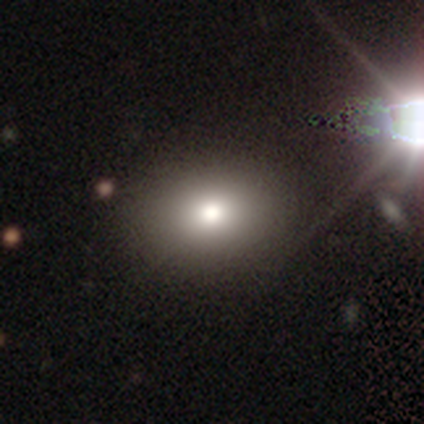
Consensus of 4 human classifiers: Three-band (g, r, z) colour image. It shows a smooth galaxy with no disk features (100%) that is in between round and cigar-shaped (75%). Merging: none (100%).